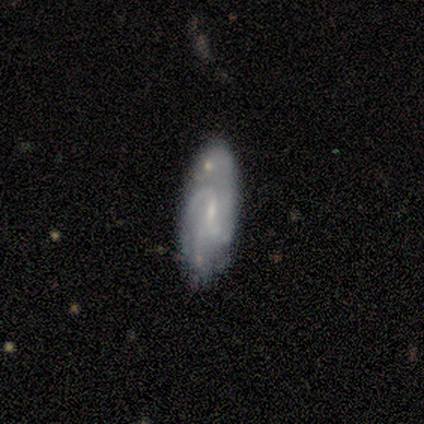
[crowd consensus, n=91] Q: Smooth or featured?
A: featured or disk (74%); runner-up: smooth (22%)
Q: Edge-on disk?
A: no (99%); runner-up: yes (1%)
Q: Bar?
A: weak (58%); runner-up: no (38%)
Q: Spiral arms?
A: yes (95%); runner-up: no (5%)
Q: Spiral winding?
A: medium (41%); runner-up: tight (33%)
Q: Spiral arm count?
A: can't tell (27%); runner-up: 2 (24%)
Q: Bulge size?
A: small (65%); runner-up: moderate (18%)
Q: Merging?
A: none (56%); runner-up: minor disturbance (33%)